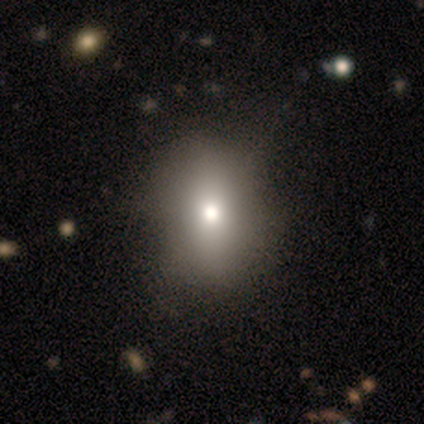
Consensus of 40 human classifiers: Q: Smooth or featured?
A: smooth (68%); runner-up: featured or disk (22%)
Q: How rounded?
A: in between (70%); runner-up: round (26%)
Q: Merging?
A: none (53%); runner-up: minor disturbance (17%)